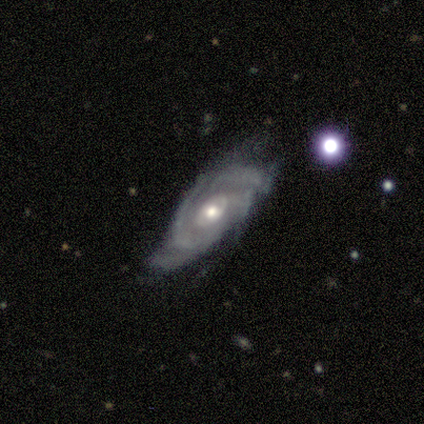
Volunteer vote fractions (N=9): This appears to be a featured or disk galaxy (89%) with no bar (100%), 1 (29%, tied with 4) medium (57%) spiral arms (88%) and a moderate central bulge (75%). Merging: none (44%).